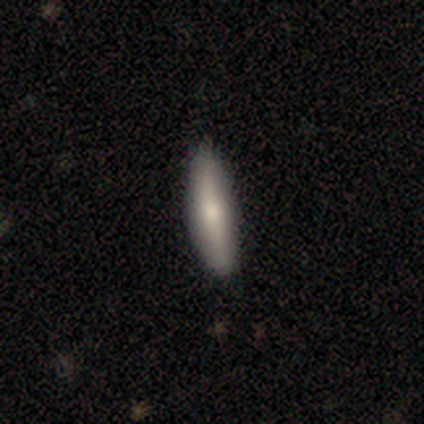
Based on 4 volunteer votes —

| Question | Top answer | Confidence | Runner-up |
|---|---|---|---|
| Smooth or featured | featured or disk | 75% | smooth (25%) |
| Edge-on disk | yes | 100% | — |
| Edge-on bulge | rounded | 67% | none (33%) |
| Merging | none | 100% | — |